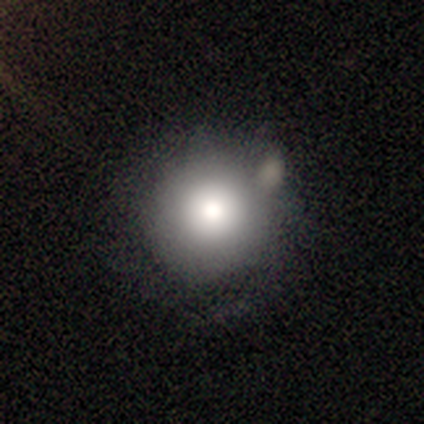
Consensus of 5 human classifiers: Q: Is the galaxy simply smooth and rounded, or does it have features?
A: smooth — 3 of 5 (60%).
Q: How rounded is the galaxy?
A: round — 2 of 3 (67%).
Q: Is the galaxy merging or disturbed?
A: none — 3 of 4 (75%).